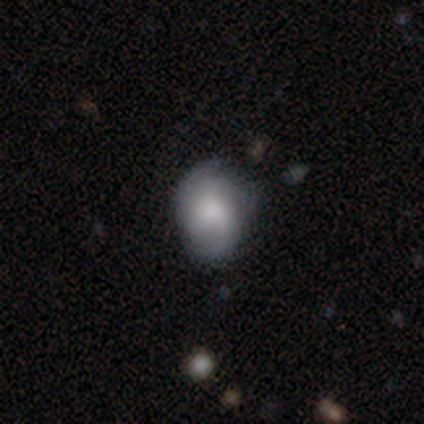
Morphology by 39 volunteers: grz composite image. It shows a smooth galaxy with no disk features (64%) that is in between round and cigar-shaped (76%). Merging: none (67%).